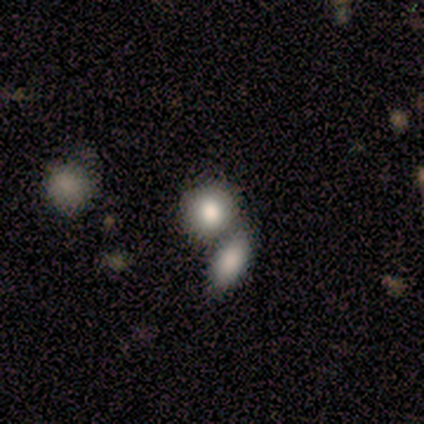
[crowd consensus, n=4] Morphology: type=smooth (100%); roundness=round (50%, tied with in between); merging=none (50%, tied with merger).